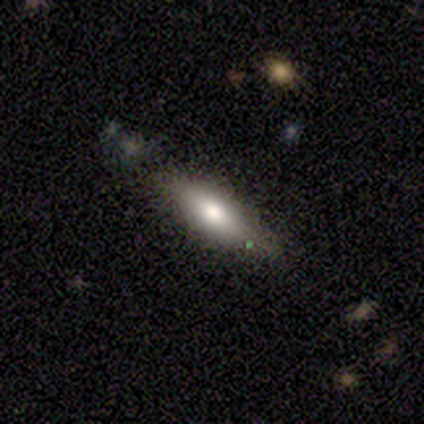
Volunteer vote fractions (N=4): Smooth or featured: smooth — 75% (featured or disk — 25%)
How rounded: in between — 67% (cigar-shaped — 33%)
Merging: none — 50% (tied with minor disturbance — 50%)